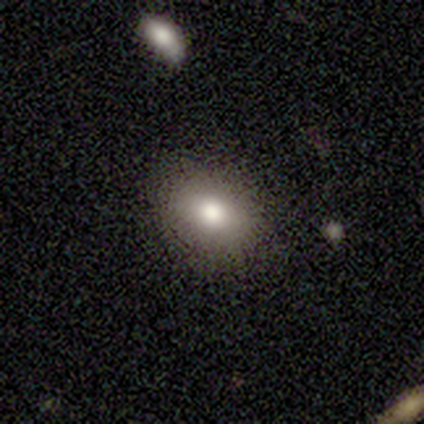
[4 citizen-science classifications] A smooth galaxy with no disk features (100%) that is in between round and cigar-shaped (100%).

Vote fractions:
- Smooth or featured? smooth: 100% / featured or disk: 0% / star or artifact: 0%
- How rounded? in between: 100% / round: 0% / cigar-shaped: 0%
- Merging? none: 100% / minor disturbance: 0% / major disturbance: 0% / merger: 0%